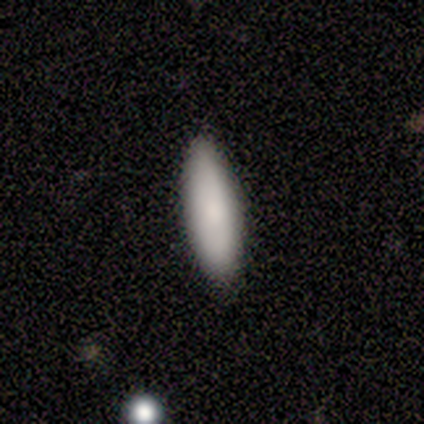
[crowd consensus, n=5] Smooth or featured? 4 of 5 (80%) said smooth. How rounded? 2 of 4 (50%, tied with cigar-shaped) said in between. Merging? 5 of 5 (100%) said none.